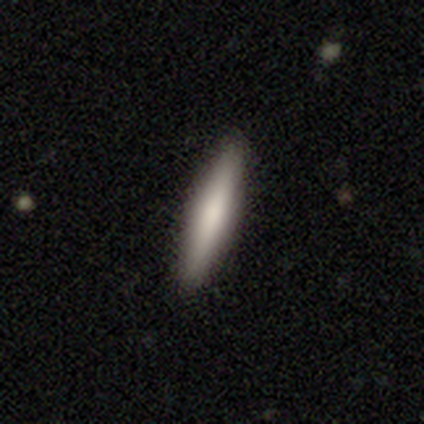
Smooth or featured? 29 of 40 (72%) said smooth. How rounded? 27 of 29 (93%) said cigar-shaped. Merging? 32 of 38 (84%) said none.